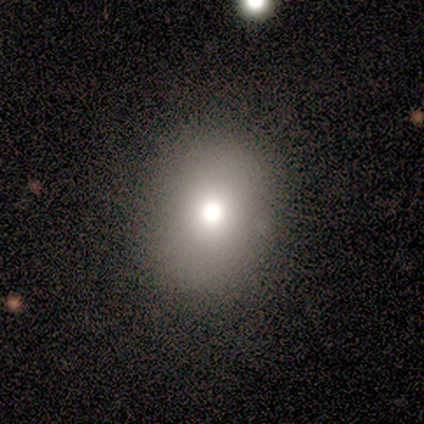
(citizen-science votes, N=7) Smooth or featured? 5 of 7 (71%) said smooth. How rounded? 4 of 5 (80%) said round. Merging? 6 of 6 (100%) said none.